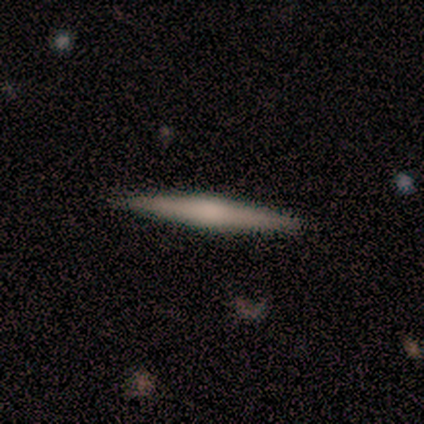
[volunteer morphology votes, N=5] type=smooth (60%); roundness=cigar-shaped (100%); merging=none (100%).